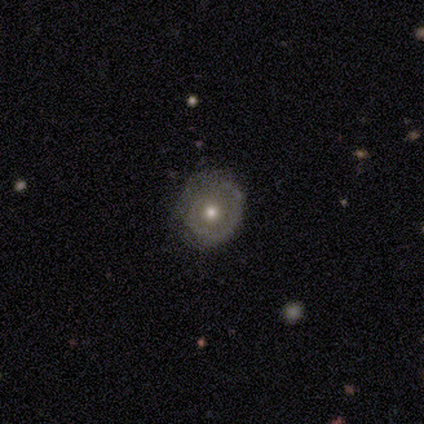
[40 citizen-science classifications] smooth-or-featured: featured or disk: 65% | smooth: 32% | star or artifact: 2%
  disk-edge-on: no: 100% | yes: 0%
    bar: no: 88% | weak: 12% | strong: 0%
    has-spiral-arms: yes: 54% | no: 46%
      spiral-winding: tight: 79% | medium: 21% | loose: 0%
      spiral-arm-count: 1: 64% | can't tell: 21% | 2: 14% | 3: 0% | 4: 0% | more than 4: 0%
    bulge-size: moderate: 62% | small: 27% | large: 12% | dominant: 0% | none: 0%
  merging: none: 79% | minor disturbance: 15% | major disturbance: 5% | merger: 0%